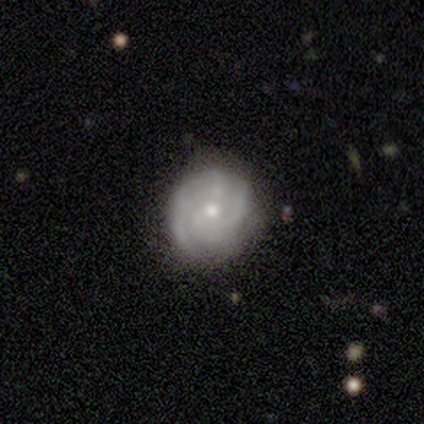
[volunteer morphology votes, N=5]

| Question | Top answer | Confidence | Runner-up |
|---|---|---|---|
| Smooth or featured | featured or disk | 60% | smooth (40%) |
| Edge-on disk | no | 100% | — |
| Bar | weak | 67% | no (33%) |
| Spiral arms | yes | 100% | — |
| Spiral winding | tight | 33% | tied: medium (33%), loose (33%) |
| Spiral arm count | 2 | 33% | tied: 4 (33%), can't tell (33%) |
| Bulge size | moderate | 67% | small (33%) |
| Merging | none | 60% | minor disturbance (40%) |